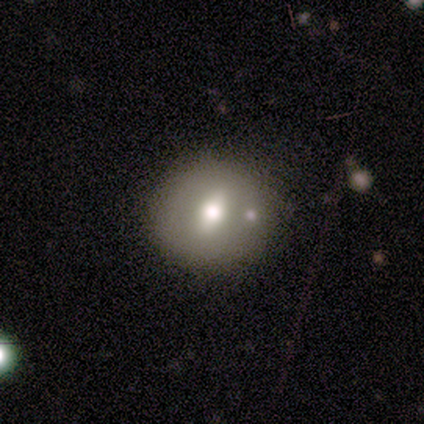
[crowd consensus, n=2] Q: Smooth or featured?
A: smooth (100%)
Q: How rounded?
A: round (50%); tied with: in between (50%)
Q: Merging?
A: none (50%); tied with: major disturbance (50%)